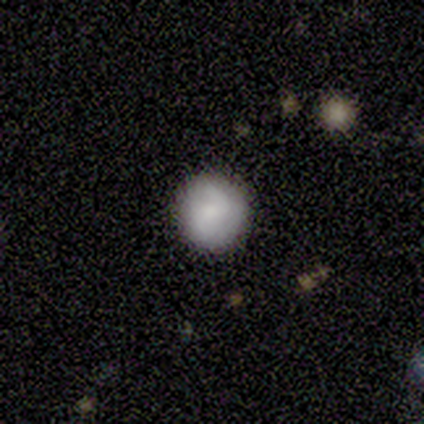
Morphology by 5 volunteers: Smooth or featured?
  - featured or disk: 80% *
  - smooth: 20%
  - star or artifact: 0%
Edge-on disk?
  - no: 100% *
  - yes: 0%
Bar?
  - no: 75% *
  - strong: 25%
  - weak: 0%
Spiral arms?
  - yes: 50% * (tied)
  - no: 50% * (tied)
Spiral winding?
  - loose: 100% *
  - tight: 0%
  - medium: 0%
Spiral arm count?
  - 1: 50% * (tied)
  - 2: 50% * (tied)
  - 3: 0%
  - 4: 0%
  - more than 4: 0%
  - can't tell: 0%
Bulge size?
  - none: 50% *
  - moderate: 25%
  - small: 25%
  - dominant: 0%
  - large: 0%
Merging?
  - none: 60% *
  - minor disturbance: 40%
  - major disturbance: 0%
  - merger: 0%